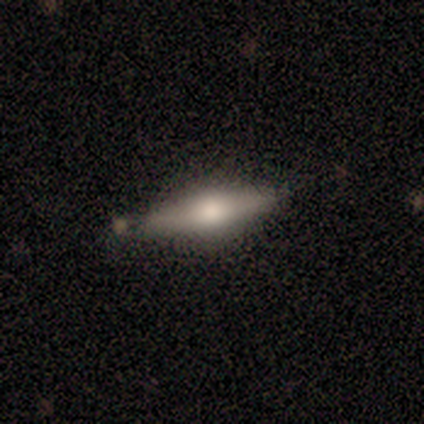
Smooth or featured?
  - smooth: 60% *
  - featured or disk: 40%
  - star or artifact: 0%
How rounded?
  - cigar-shaped: 67% *
  - in between: 33%
  - round: 0%
Merging?
  - none: 100% *
  - minor disturbance: 0%
  - major disturbance: 0%
  - merger: 0%